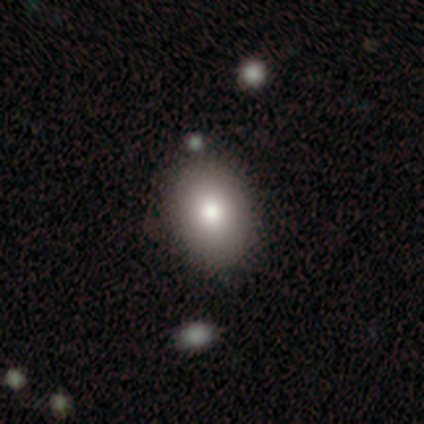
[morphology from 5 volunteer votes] Smooth or featured?
  - smooth: 100% *
  - featured or disk: 0%
  - star or artifact: 0%
How rounded?
  - in between: 80% *
  - round: 20%
  - cigar-shaped: 0%
Merging?
  - none: 100% *
  - minor disturbance: 0%
  - major disturbance: 0%
  - merger: 0%